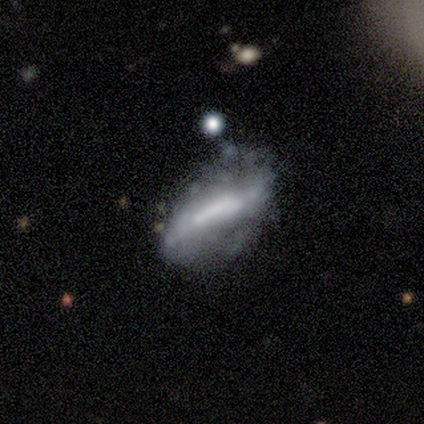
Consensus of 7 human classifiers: Smooth or featured?
  - featured or disk: 86% *
  - smooth: 14%
  - star or artifact: 0%
Edge-on disk?
  - no: 100% *
  - yes: 0%
Bar?
  - strong: 67% *
  - weak: 17%
  - no: 17%
Spiral arms?
  - no: 83% *
  - yes: 17%
Bulge size?
  - none: 67% *
  - dominant: 17%
  - moderate: 17%
  - large: 0%
  - small: 0%
Merging?
  - none: 43% *
  - major disturbance: 29%
  - minor disturbance: 14%
  - merger: 14%